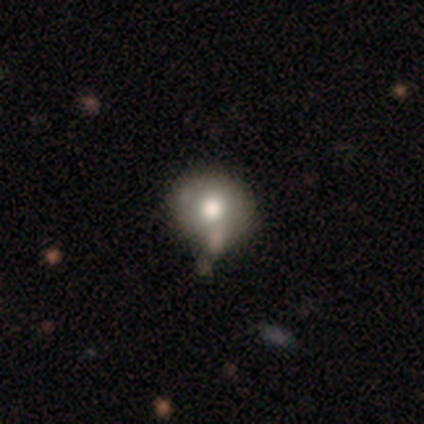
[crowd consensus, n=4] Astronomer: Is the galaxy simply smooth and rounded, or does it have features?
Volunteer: smooth — 100%.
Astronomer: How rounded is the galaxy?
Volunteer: round — 100%.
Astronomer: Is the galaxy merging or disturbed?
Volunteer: none — 50%.